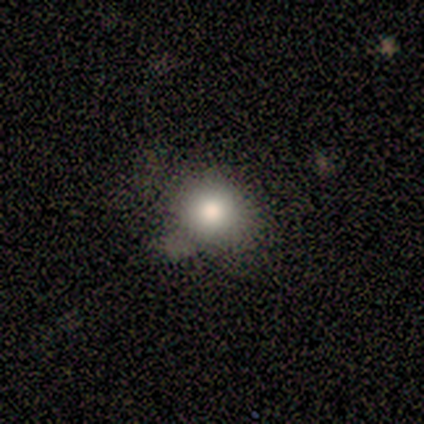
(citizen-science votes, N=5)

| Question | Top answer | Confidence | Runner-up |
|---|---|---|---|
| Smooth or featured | smooth | 100% | — |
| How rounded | round | 60% | in between (40%) |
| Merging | none | 80% | merger (20%) |